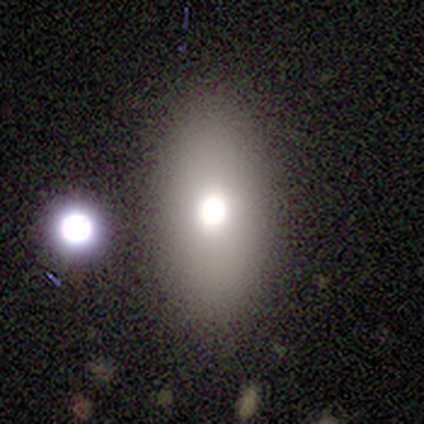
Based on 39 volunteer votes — Morphology: type=smooth (72%); roundness=in between (96%); merging=none (77%).